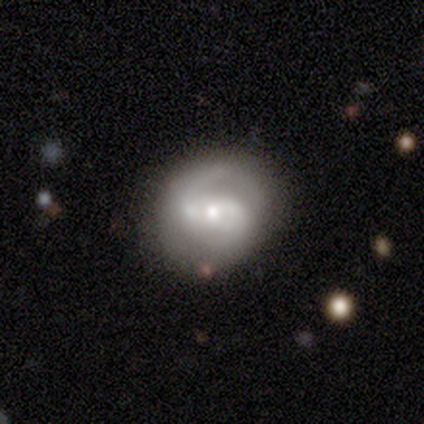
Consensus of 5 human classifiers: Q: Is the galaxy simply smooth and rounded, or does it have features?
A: featured or disk — 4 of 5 (80%).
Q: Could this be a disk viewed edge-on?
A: no — 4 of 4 (100%).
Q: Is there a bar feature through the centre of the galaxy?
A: no — 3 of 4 (75%).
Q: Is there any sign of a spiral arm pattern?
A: yes — 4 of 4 (100%).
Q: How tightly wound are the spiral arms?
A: loose — 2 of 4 (50%).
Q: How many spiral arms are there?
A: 2 — 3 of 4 (75%).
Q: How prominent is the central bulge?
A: moderate — 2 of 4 (50%, tied with small).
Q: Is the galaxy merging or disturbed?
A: none — 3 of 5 (60%).